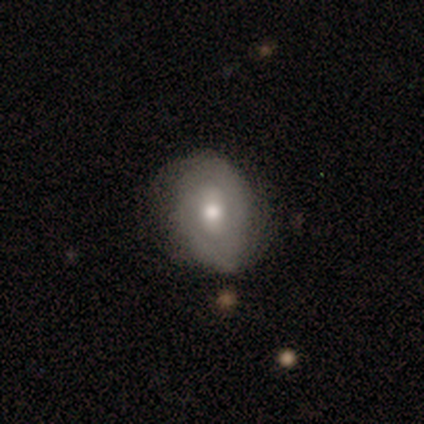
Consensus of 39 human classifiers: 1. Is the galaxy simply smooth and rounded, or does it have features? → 54% featured or disk, 44% smooth, 3% star or artifact.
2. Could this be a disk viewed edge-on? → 95% no, 5% yes.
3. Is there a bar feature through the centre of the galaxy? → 50% no, 40% weak, 10% strong.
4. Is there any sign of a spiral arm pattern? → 65% yes, 35% no.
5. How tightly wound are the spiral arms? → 38% medium, 31% tight, 31% loose.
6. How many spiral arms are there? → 62% can't tell, 38% 2, 0% 1, 0% 3, 0% 4, 0% more than 4.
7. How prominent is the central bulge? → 80% moderate, 10% small, 5% dominant, 5% large, 0% none.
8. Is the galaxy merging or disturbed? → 71% none, 24% minor disturbance, 5% major disturbance, 0% merger.